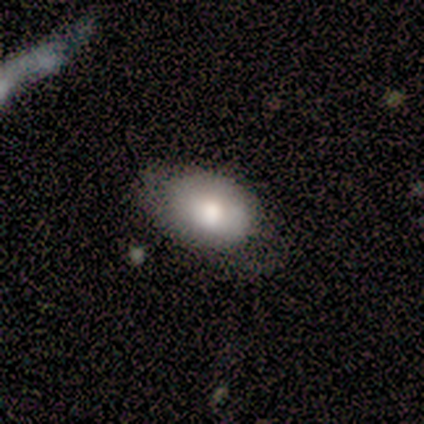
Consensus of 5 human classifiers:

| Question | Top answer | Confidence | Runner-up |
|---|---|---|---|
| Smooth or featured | smooth | 60% | featured or disk (20%) |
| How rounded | in between | 100% | — |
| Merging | minor disturbance | 50% | tied: major disturbance (50%) |